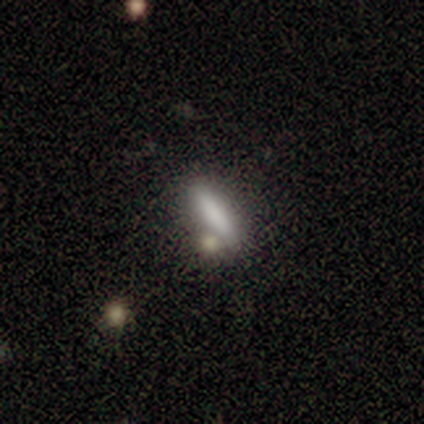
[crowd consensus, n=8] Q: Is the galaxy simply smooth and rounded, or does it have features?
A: smooth — 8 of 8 (100%).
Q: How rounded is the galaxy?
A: cigar-shaped — 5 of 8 (62%).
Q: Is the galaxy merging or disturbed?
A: none — 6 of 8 (75%).